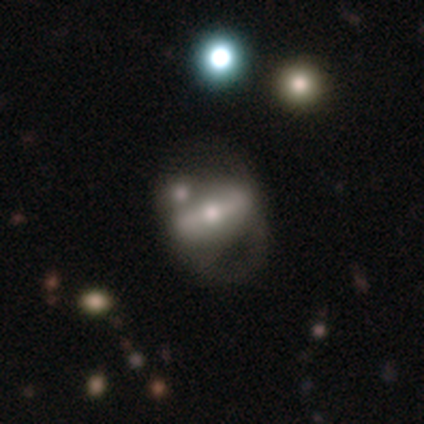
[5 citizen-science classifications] Smooth or featured: featured or disk — 100%
Edge-on disk: no — 60% (yes — 40%)
Bar: no — 67% (strong — 33%)
Spiral arms: yes — 67% (no — 33%)
Spiral winding: loose — 100%
Spiral arm count: 1 — 50% (tied with 2 — 50%)
Bulge size: moderate — 67% (small — 33%)
Merging: major disturbance — 40% (tied with merger — 40%)